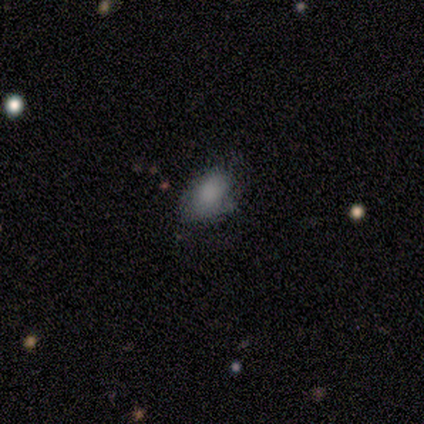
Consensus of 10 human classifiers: A smooth galaxy with no disk features (60%) that is in between round and cigar-shaped (100%). Merging: none (43%, tied with minor disturbance).